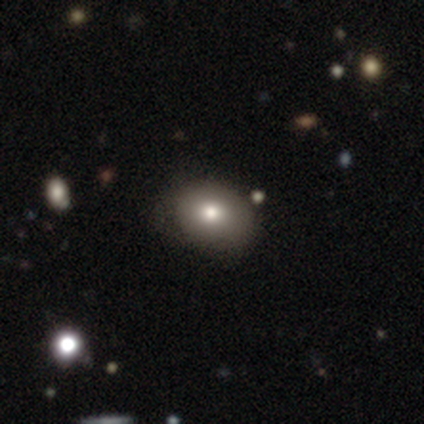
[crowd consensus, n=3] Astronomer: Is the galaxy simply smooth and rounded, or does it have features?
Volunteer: smooth — 67%.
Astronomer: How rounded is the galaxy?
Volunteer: in between — 100%.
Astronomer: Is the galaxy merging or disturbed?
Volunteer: none — 50%, tied with minor disturbance at 50%.